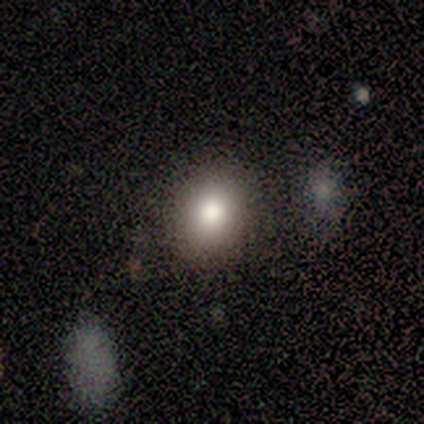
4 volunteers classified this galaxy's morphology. Q: Smooth or featured?
A: smooth (100%)
Q: How rounded?
A: round (50%); tied with: in between (50%)
Q: Merging?
A: none (100%)